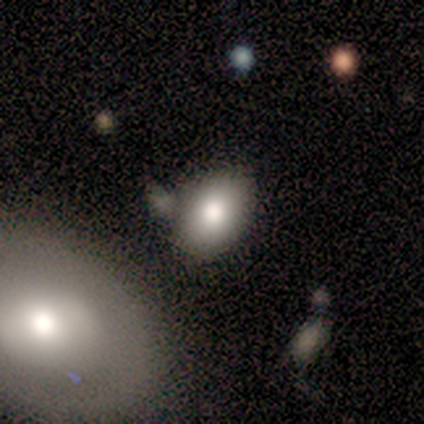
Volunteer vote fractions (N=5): smooth_or_featured: smooth (p=0.60) [alt: featured or disk p=0.40]
how_rounded: in between (p=0.67) [alt: round p=0.33]
merging: none (p=0.80) [alt: merger p=0.20]